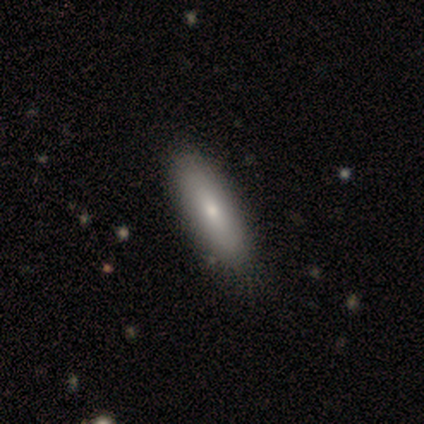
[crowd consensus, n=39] A smooth galaxy with no disk features (74%) that is in between round and cigar-shaped (62%).

Vote fractions:
- Smooth or featured? smooth: 74% / featured or disk: 26% / star or artifact: 0%
- How rounded? in between: 62% / cigar-shaped: 38% / round: 0%
- Merging? none: 62% / minor disturbance: 10% / merger: 5% / major disturbance: 0%